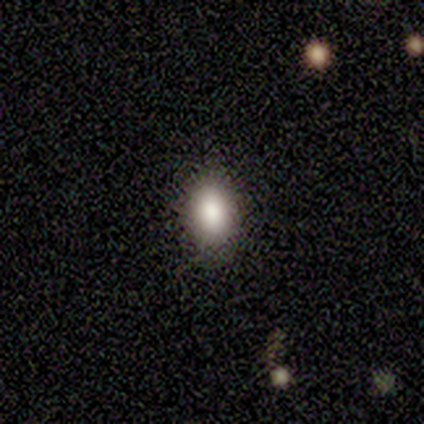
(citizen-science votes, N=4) smooth-or-featured: smooth: 100% | featured or disk: 0% | star or artifact: 0%
  how-rounded: round: 50% (tied) | in between: 50% (tied) | cigar-shaped: 0%
  merging: none: 75% | minor disturbance: 25% | major disturbance: 0% | merger: 0%